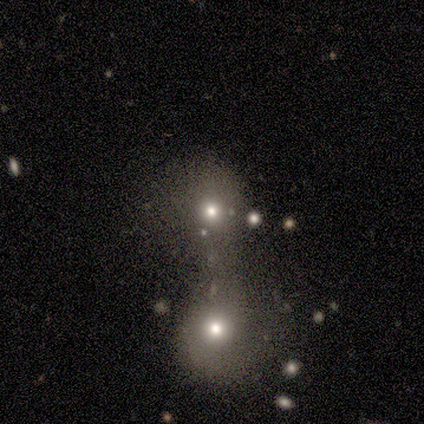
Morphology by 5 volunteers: Q: Smooth or featured?
A: smooth (60%); runner-up: featured or disk (20%)
Q: How rounded?
A: round (100%)
Q: Merging?
A: merger (100%)